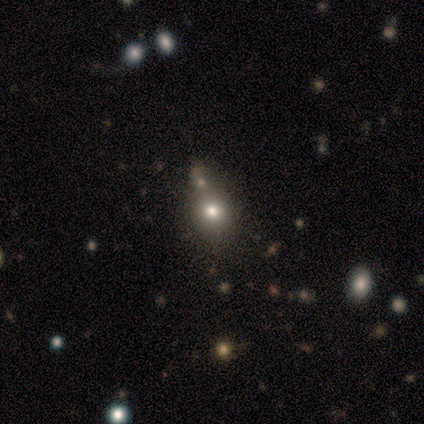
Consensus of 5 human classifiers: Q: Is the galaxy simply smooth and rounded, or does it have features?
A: smooth — 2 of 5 (40%, tied with star or artifact).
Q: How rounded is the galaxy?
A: round — 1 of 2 (50%, tied with in between).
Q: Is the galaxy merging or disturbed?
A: none — 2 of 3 (67%).